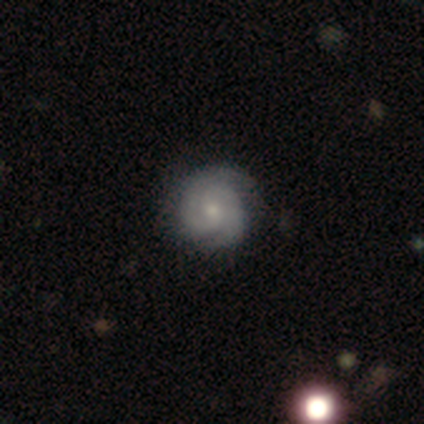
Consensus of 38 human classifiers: Smooth or featured? featured or disk (84%)
Edge-on disk? no (97%)
Bar? no (71%)
Spiral arms? yes (100%)
Spiral winding? tight (77%)
Spiral arm count? 2 (84%)
Bulge size? small (65%)
Merging? none (80%)